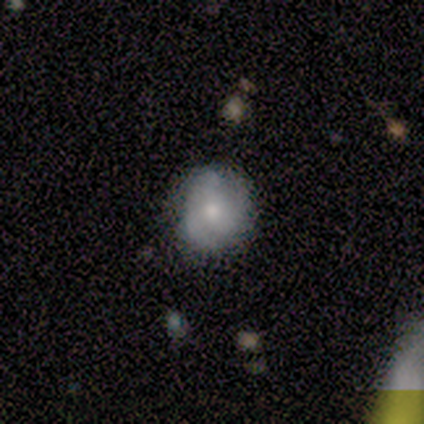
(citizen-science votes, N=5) smooth_or_featured: smooth (p=0.80) [alt: featured or disk p=0.20]
how_rounded: round (p=0.75) [alt: in between p=0.25]
merging: none (p=0.60) [alt: minor disturbance p=0.20]